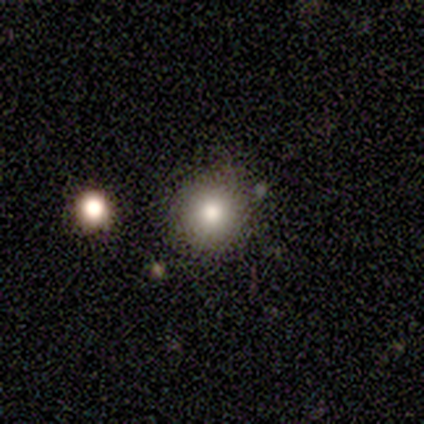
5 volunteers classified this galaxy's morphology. Smooth or featured? 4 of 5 (80%) said smooth. How rounded? 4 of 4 (100%) said round. Merging? 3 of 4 (75%) said none.